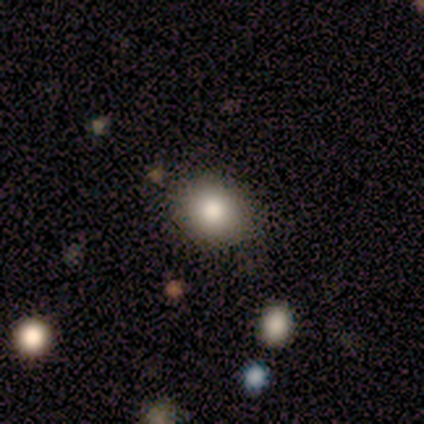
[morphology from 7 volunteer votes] A smooth galaxy with no disk features (71%) that is round (60%).

Vote fractions:
- Smooth or featured? smooth: 71% / featured or disk: 14% / star or artifact: 14%
- How rounded? round: 60% / in between: 40% / cigar-shaped: 0%
- Merging? none: 100% / minor disturbance: 0% / major disturbance: 0% / merger: 0%